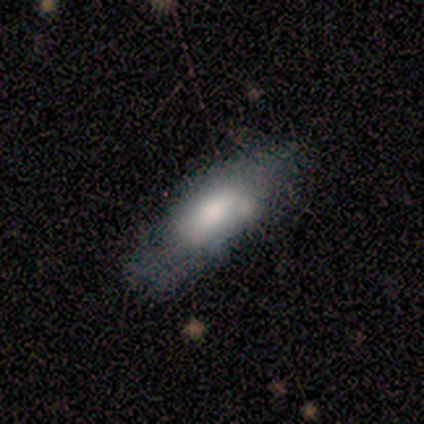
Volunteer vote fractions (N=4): A smooth galaxy with no disk features (75%) that is cigar-shaped (67%).

Vote fractions:
- Smooth or featured? smooth: 75% / star or artifact: 25% / featured or disk: 0%
- How rounded? cigar-shaped: 67% / in between: 33% / round: 0%
- Merging? none: 67% / merger: 33% / minor disturbance: 0% / major disturbance: 0%